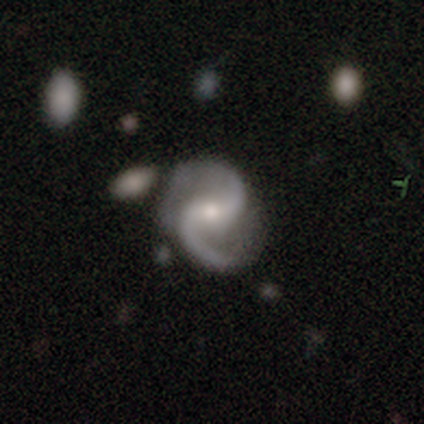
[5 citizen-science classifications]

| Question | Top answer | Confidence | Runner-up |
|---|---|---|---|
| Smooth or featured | featured or disk | 100% | — |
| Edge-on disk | no | 100% | — |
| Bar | weak | 60% | strong (20%) |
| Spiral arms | yes | 100% | — |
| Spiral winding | loose | 60% | medium (40%) |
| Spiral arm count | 2 | 100% | — |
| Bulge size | moderate | 60% | small (40%) |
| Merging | none | 100% | — |